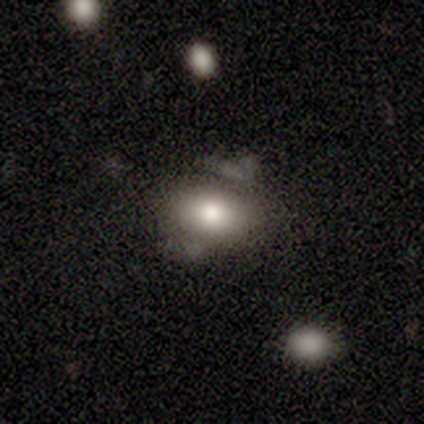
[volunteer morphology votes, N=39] smooth-or-featured: smooth: 74% | featured or disk: 26% | star or artifact: 0%
  how-rounded: in between: 90% | round: 10% | cigar-shaped: 0%
  merging: none: 49% | minor disturbance: 26% | merger: 15% | major disturbance: 10%